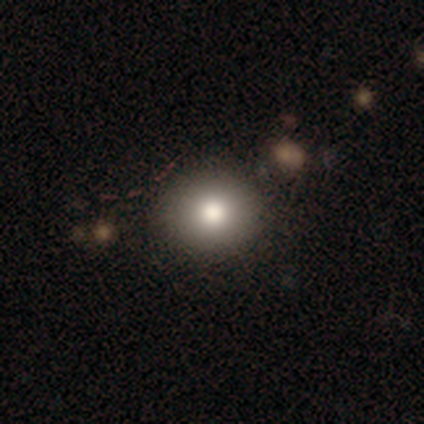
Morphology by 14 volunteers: smooth_or_featured: smooth (p=0.71) [alt: featured or disk p=0.29]
how_rounded: round (p=0.80) [alt: in between p=0.20]
merging: none (p=0.71) [alt: minor disturbance p=0.21]